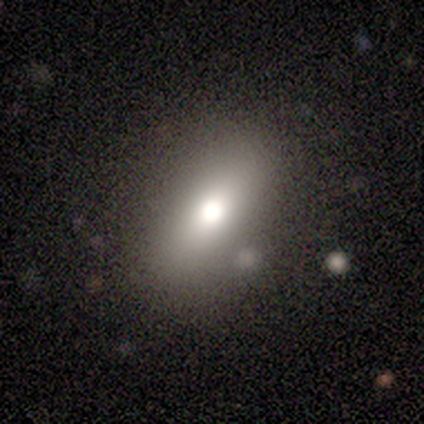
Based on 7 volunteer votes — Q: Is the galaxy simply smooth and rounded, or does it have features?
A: featured or disk — 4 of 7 (57%).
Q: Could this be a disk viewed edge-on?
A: no — 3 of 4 (75%).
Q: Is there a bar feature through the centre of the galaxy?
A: no — 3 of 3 (100%).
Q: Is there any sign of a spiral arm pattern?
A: no — 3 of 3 (100%).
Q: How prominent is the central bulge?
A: moderate — 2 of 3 (67%).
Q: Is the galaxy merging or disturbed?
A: none — 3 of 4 (75%).